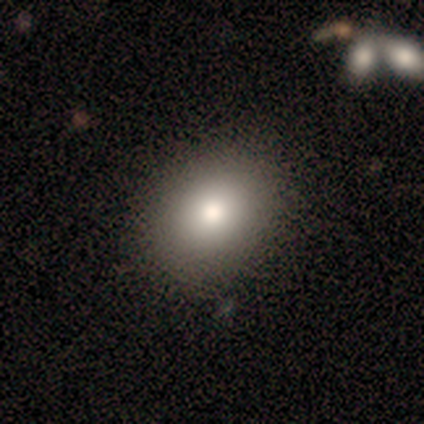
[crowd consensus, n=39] Smooth or featured? 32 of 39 (82%) said smooth. How rounded? 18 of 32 (56%) said in between. Merging? 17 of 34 (50%) said none.